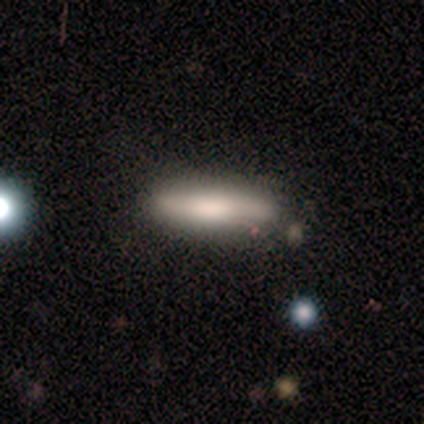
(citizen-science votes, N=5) This appears to be a smooth galaxy with no disk features (80%) that is cigar-shaped (100%). Merging: none (80%).